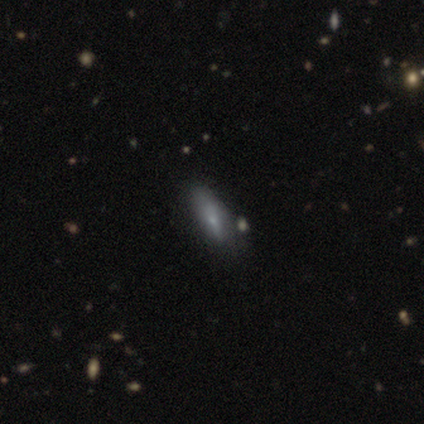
smooth 80%, featured or disk 20%, star or artifact 0%. Down the decision tree: how rounded — in between (75%); merging — none (80%).